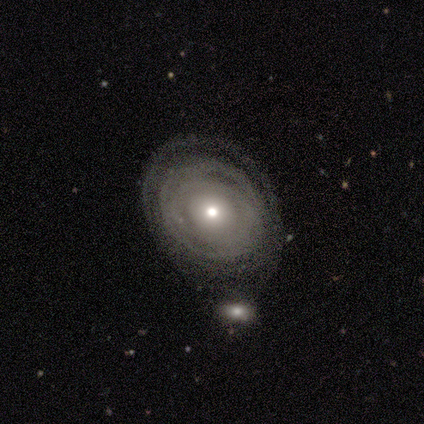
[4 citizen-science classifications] Morphology: type=smooth (50%, tied with featured or disk); roundness=round (50%, tied with in between); merging=none (50%).